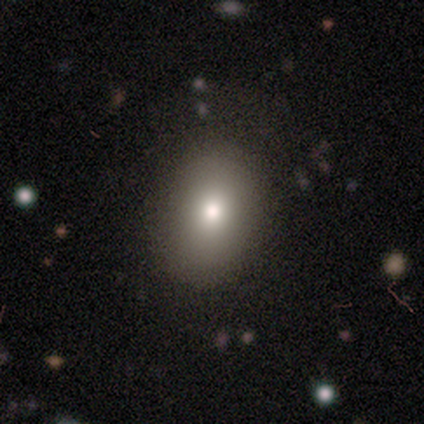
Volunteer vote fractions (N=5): This is clearly a smooth galaxy (100%). How rounded: likely in between (60%). Merging: clearly none (100%).